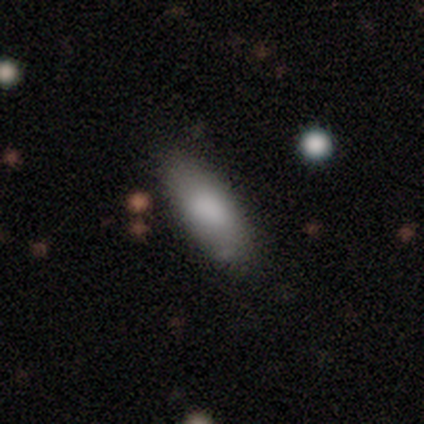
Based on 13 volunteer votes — Volunteers were most divided on "how rounded": in between: 75%, cigar-shaped: 25%, round: 0%. More confident: smooth or featured — smooth (92%); merging — none (77%).